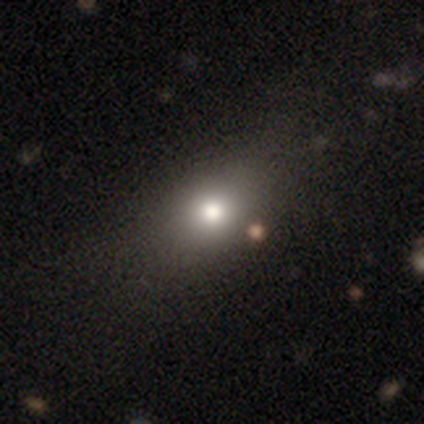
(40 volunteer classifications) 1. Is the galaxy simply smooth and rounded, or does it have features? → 82% smooth, 15% star or artifact, 2% featured or disk.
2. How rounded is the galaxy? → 55% in between, 36% round, 9% cigar-shaped.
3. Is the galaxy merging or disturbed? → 50% none, 12% major disturbance, 9% minor disturbance, 0% merger.